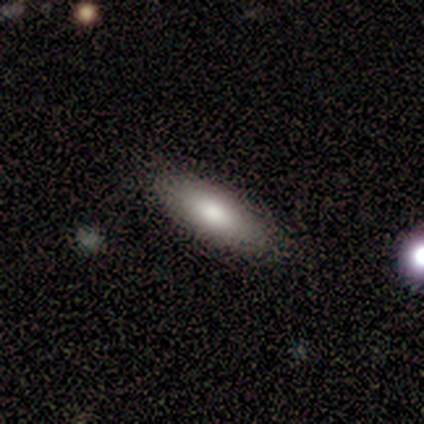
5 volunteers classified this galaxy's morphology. Overall: smooth (60%; featured or disk 20%). How rounded: in between (67%; cigar-shaped 33%). Merging: none (100%).